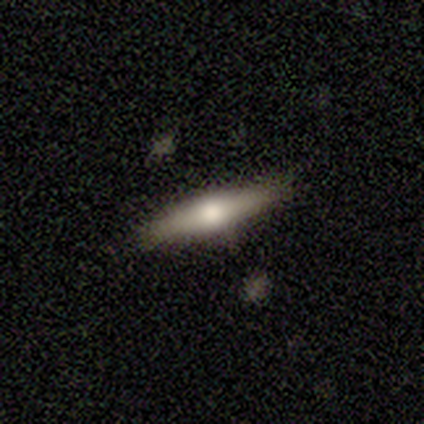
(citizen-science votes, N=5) Smooth or featured: smooth — 80% (featured or disk — 20%)
How rounded: cigar-shaped — 75% (in between — 25%)
Merging: none — 60% (minor disturbance — 40%)